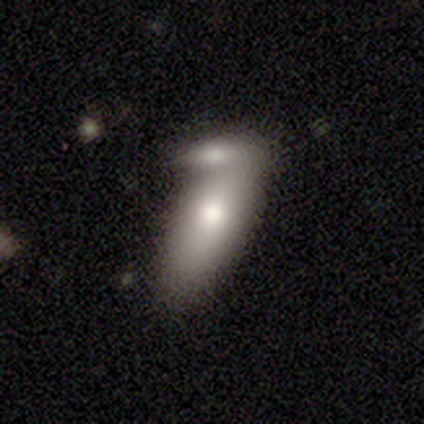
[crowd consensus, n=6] smooth-or-featured: smooth: 100% | featured or disk: 0% | star or artifact: 0%
  how-rounded: in between: 67% | cigar-shaped: 33% | round: 0%
  merging: merger: 67% | none: 33% | minor disturbance: 0% | major disturbance: 0%